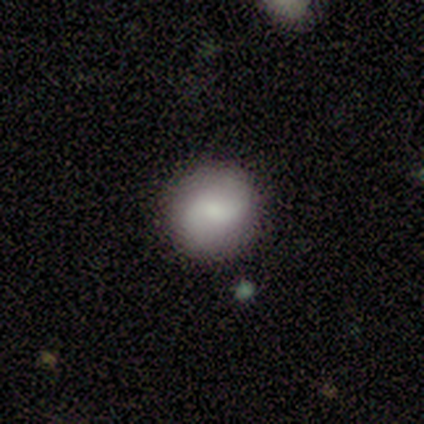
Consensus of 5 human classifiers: Morphology: type=smooth (40%, tied with featured or disk); roundness=round (100%); merging=none (100%).